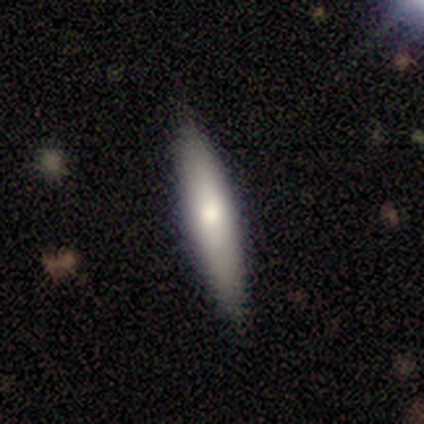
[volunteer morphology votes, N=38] type=smooth (71%); roundness=cigar-shaped (85%); merging=none (83%).